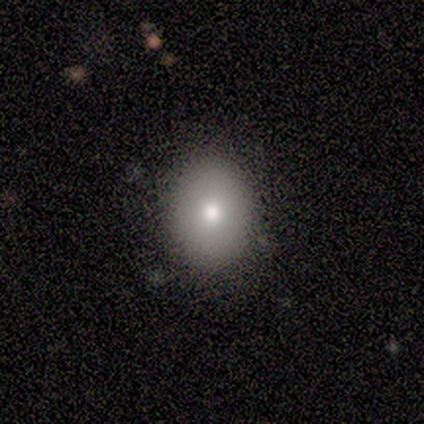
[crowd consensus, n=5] This appears to be a smooth galaxy with no disk features (100%) that is in between round and cigar-shaped (80%). Merging: none (100%).